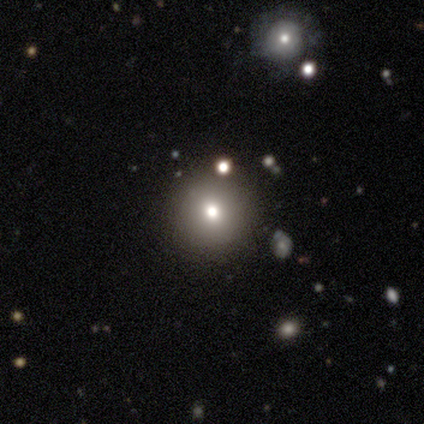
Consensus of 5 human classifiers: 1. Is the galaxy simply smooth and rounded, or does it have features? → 60% smooth, 40% star or artifact, 0% featured or disk.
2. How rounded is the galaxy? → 67% round, 33% in between, 0% cigar-shaped.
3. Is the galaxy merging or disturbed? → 67% none, 33% minor disturbance, 0% major disturbance, 0% merger.